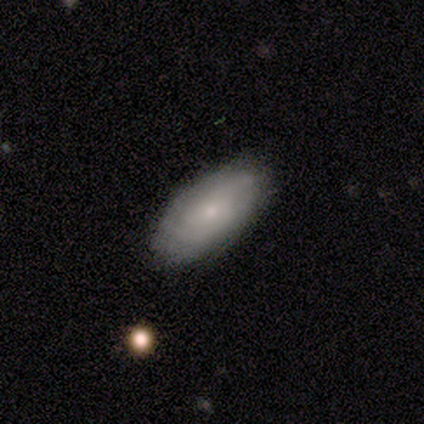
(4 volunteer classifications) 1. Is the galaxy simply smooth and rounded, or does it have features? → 75% featured or disk, 25% smooth, 0% star or artifact.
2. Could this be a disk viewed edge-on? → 100% no, 0% yes.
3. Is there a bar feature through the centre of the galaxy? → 67% weak, 33% no, 0% strong.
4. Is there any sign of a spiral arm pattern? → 100% yes, 0% no.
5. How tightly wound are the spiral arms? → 67% tight, 33% medium, 0% loose.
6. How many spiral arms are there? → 67% can't tell, 33% 3, 0% 1, 0% 2, 0% 4, 0% more than 4.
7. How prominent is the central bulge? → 100% small, 0% dominant, 0% large, 0% moderate, 0% none.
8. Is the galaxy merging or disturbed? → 100% none, 0% minor disturbance, 0% major disturbance, 0% merger.